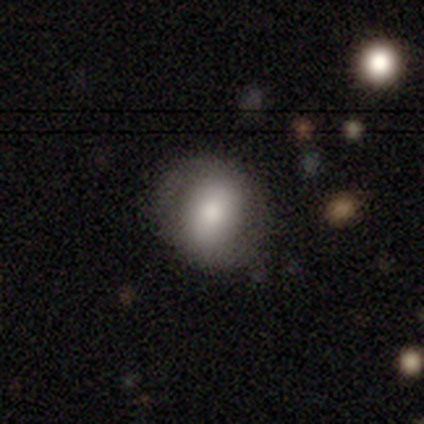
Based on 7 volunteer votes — A smooth galaxy with no disk features (57%) that is round (100%).

Vote fractions:
- Smooth or featured? smooth: 57% / featured or disk: 43% / star or artifact: 0%
- How rounded? round: 100% / in between: 0% / cigar-shaped: 0%
- Merging? none: 57% / minor disturbance: 14% / major disturbance: 14% / merger: 14%